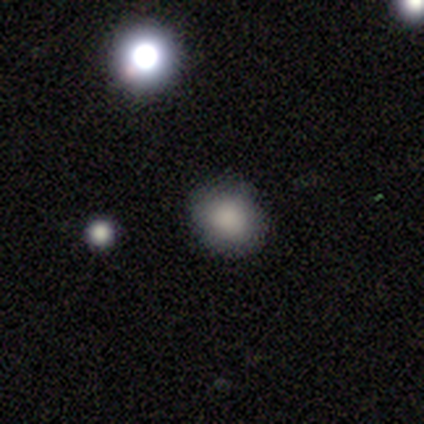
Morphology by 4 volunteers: smooth_or_featured: smooth (p=0.75) [alt: star or artifact p=0.25]
how_rounded: round (p=1.00)
merging: none (p=1.00)